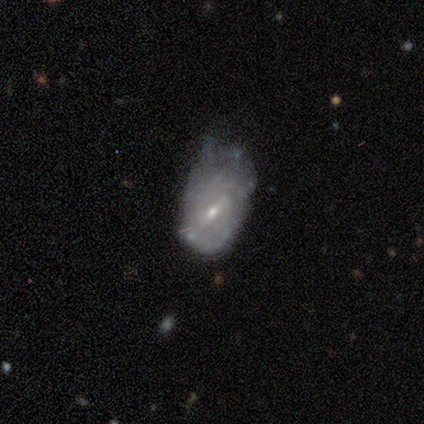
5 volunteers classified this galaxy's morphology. type=featured or disk (60%); edge-on=no (100%); bar=weak (67%); spiral arms=yes (67%); winding=tight (50%, tied with loose); arm count=2 (50%, tied with can't tell); bulge=small (100%); merging=minor disturbance (60%).